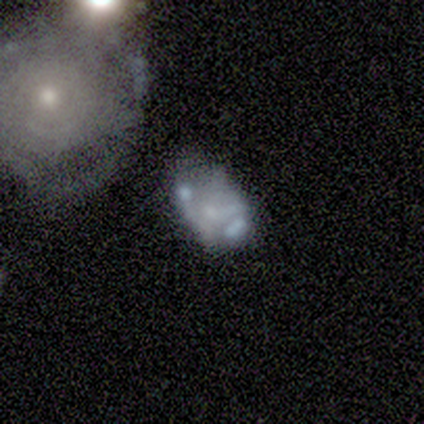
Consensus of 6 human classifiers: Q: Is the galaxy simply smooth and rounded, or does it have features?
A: featured or disk — 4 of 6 (67%).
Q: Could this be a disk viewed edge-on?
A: no — 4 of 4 (100%).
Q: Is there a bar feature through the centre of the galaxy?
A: no — 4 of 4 (100%).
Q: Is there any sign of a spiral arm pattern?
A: no — 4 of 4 (100%).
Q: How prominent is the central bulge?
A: none — 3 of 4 (75%).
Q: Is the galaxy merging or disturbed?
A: none — 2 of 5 (40%).